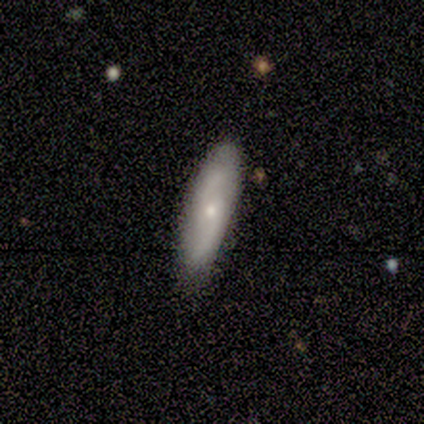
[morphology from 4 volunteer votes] Overall: smooth (50%, tied with featured or disk). How rounded: in between (100%). Merging: none (75%).